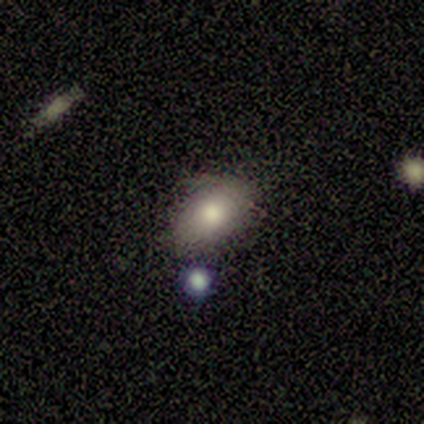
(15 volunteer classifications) Overall: smooth (100%). How rounded: in between (93%). Merging: none (67%; minor disturbance 27%).